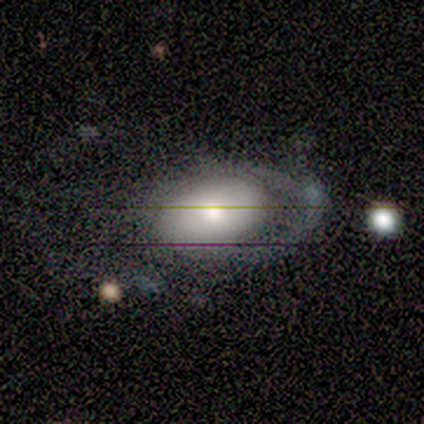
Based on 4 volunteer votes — Smooth or featured? 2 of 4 (50%) said featured or disk. Edge-on disk? 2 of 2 (100%) said no. Bar? 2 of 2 (100%) said no. Spiral arms? 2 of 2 (100%) said no. Bulge size? 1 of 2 (50%, tied with moderate) said large. Merging? 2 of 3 (67%) said minor disturbance.